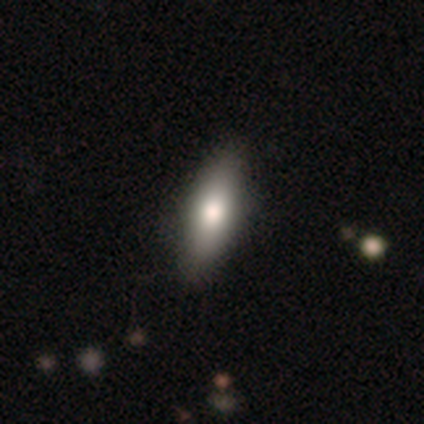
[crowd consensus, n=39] Volunteers were most divided on "how rounded": in between: 57%, cigar-shaped: 43%, round: 0%. More confident: smooth or featured — smooth (72%); merging — none (69%).